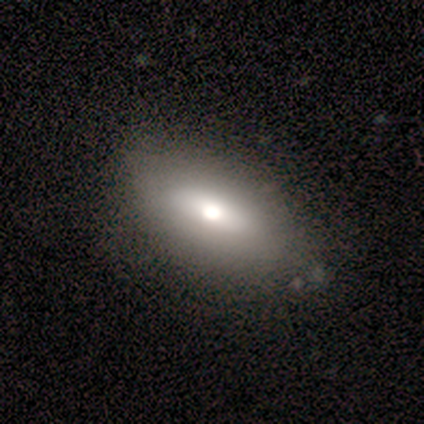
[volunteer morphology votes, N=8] Smooth or featured: smooth — 38% (tied with featured or disk — 38%)
How rounded: in between — 100%
Merging: none — 67% (minor disturbance — 17%)